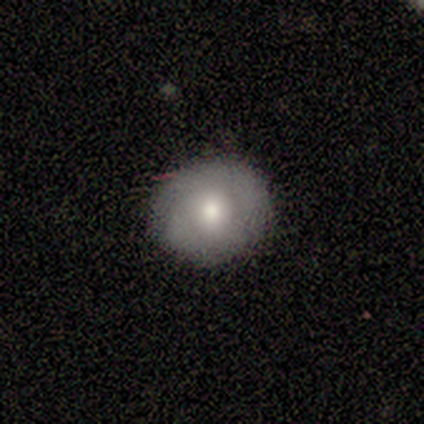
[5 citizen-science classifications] Overall: smooth (100%). How rounded: round (60%; in between 40%). Merging: none (60%; minor disturbance 20%).